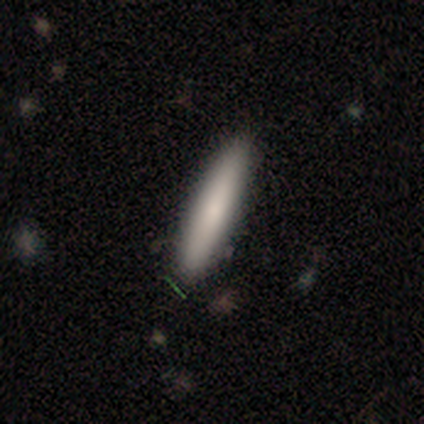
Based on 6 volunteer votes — Smooth or featured: smooth — 100%
How rounded: cigar-shaped — 100%
Merging: none — 83% (minor disturbance — 17%)